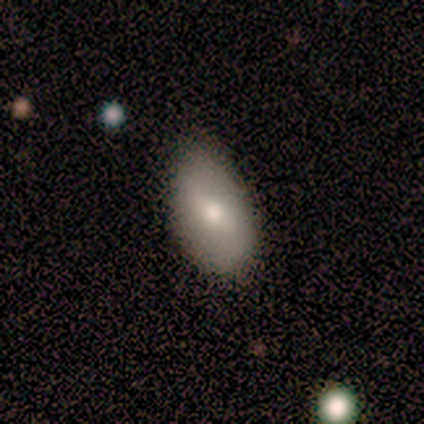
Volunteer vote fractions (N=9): Smooth or featured? smooth (67%)
How rounded? in between (100%)
Merging? none (56%)